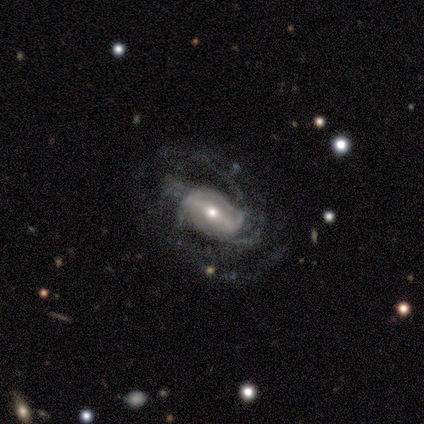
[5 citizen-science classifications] smooth_or_featured: featured or disk (p=1.00)
disk_edge_on: no (p=1.00)
bar: strong (p=0.60) [alt: weak p=0.20]
has_spiral_arms: yes (p=0.80) [alt: no p=0.20]
spiral_winding: medium (p=0.50) [tied with: loose p=0.50]
spiral_arm_count: 4 (p=0.75) [alt: can't tell p=0.25]
bulge_size: moderate (p=0.60) [alt: small p=0.40]
merging: none (p=0.60) [alt: minor disturbance p=0.20]